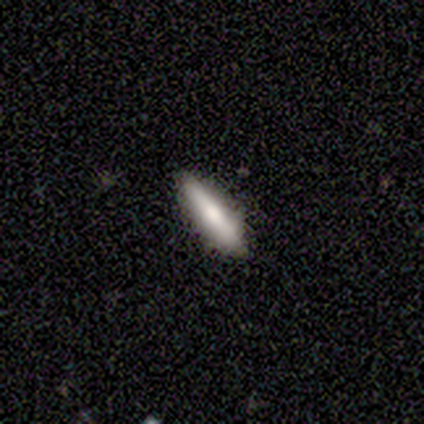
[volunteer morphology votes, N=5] Smooth or featured? 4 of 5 (80%) said smooth. How rounded? 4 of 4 (100%) said cigar-shaped. Merging? 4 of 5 (80%) said none.